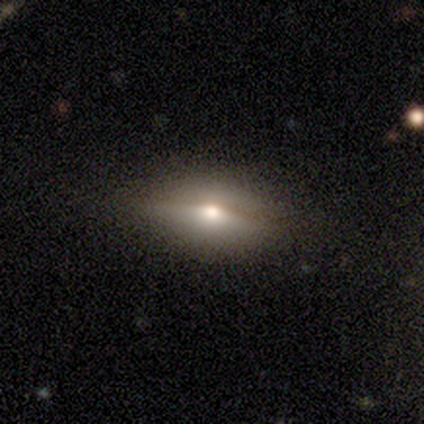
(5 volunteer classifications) Smooth or featured? smooth (40%, tied with featured or disk)
How rounded? in between (100%)
Merging? none (75%)